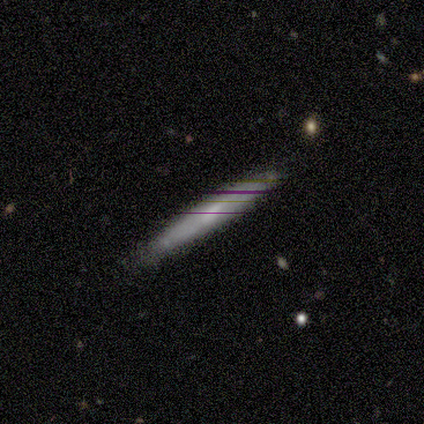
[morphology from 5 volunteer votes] Q: Smooth or featured?
A: smooth (60%); runner-up: featured or disk (40%)
Q: How rounded?
A: cigar-shaped (100%)
Q: Merging?
A: none (80%); runner-up: minor disturbance (20%)